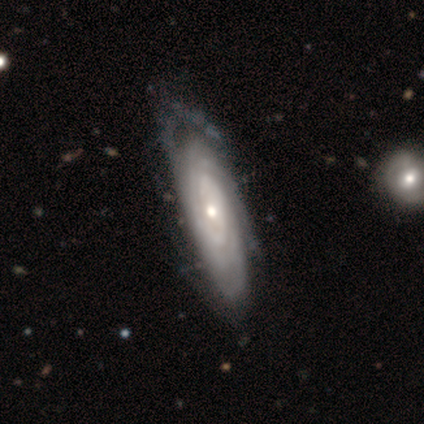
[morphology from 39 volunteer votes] smooth_or_featured: featured or disk (p=0.97) [alt: smooth p=0.03]
disk_edge_on: no (p=0.92) [alt: yes p=0.08]
bar: no (p=0.83) [alt: weak p=0.11]
has_spiral_arms: yes (p=0.91) [alt: no p=0.09]
spiral_winding: tight (p=0.91) [alt: medium p=0.09]
spiral_arm_count: can't tell (p=0.66) [alt: 2 p=0.19]
bulge_size: small (p=0.51) [alt: moderate p=0.43]
merging: none (p=0.44) [alt: minor disturbance p=0.15]